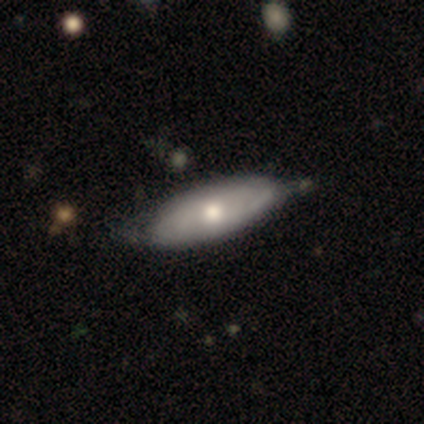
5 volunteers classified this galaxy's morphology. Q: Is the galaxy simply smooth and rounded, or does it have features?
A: featured or disk — 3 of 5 (60%).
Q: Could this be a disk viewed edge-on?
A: no — 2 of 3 (67%).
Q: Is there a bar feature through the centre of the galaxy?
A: weak — 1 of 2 (50%, tied with no).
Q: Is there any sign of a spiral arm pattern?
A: yes — 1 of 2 (50%, tied with no).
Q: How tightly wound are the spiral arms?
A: tight — 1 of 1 (100%).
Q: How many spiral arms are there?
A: can't tell — 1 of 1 (100%).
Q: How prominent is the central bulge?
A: moderate — 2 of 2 (100%).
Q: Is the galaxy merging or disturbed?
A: none — 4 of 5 (80%).